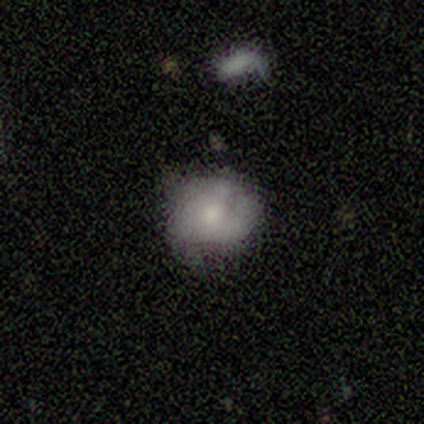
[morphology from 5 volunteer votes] This is clearly a smooth galaxy (80%). How rounded: likely round (75%). Merging: marginally none (40%, tied with major disturbance).